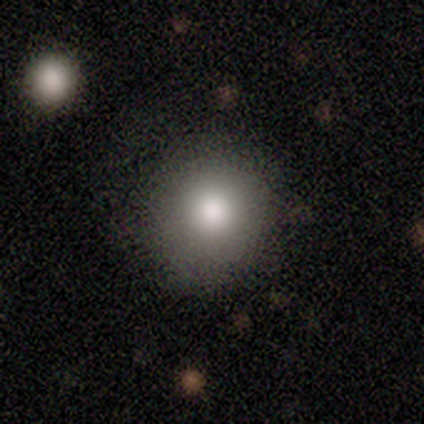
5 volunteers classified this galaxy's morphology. A smooth galaxy with no disk features (80%) that is round (100%). Merging: none (100%).